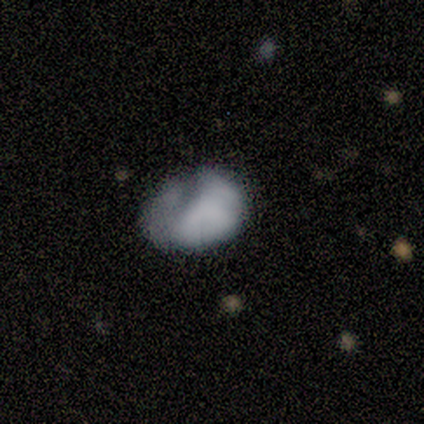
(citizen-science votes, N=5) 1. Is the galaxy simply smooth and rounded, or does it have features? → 80% featured or disk, 20% smooth, 0% star or artifact.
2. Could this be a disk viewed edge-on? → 100% no, 0% yes.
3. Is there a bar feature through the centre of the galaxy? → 100% no, 0% strong, 0% weak.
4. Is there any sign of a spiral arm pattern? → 75% no, 25% yes.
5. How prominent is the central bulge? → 50% none, 25% moderate, 25% small, 0% dominant, 0% large.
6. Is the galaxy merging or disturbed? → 60% minor disturbance, 20% major disturbance, 20% merger, 0% none.